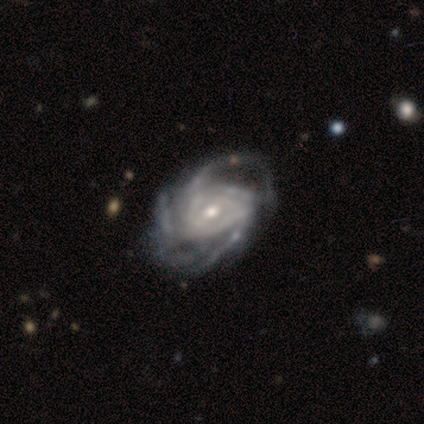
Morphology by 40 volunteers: featured or disk 95%, smooth 5%, star or artifact 0%. Down the decision tree: edge-on disk — no (92%); bar — weak (49%); spiral arms — yes (97%); spiral arm count — 3 (35%, tied with can't tell); spiral winding — tight (50%); bulge size — small (51%); merging — none (50%).